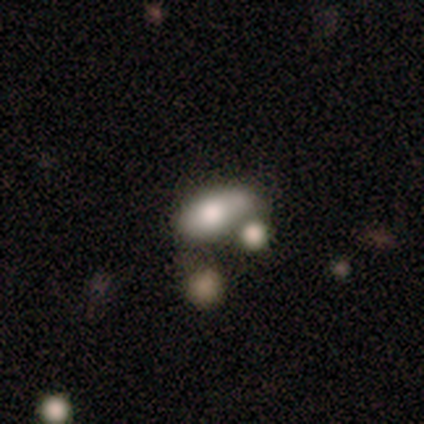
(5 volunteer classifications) Smooth or featured? smooth (80%)
How rounded? in between (100%)
Merging? minor disturbance (40%)